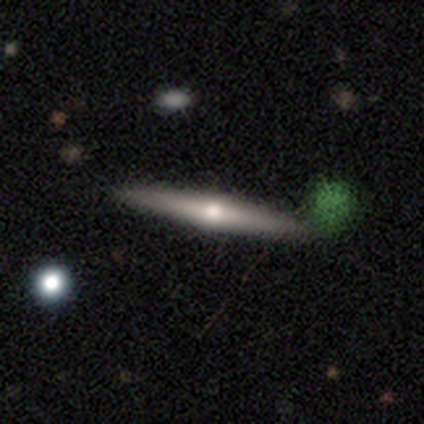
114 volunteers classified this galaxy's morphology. Smooth or featured?
  - featured or disk: 76% *
  - smooth: 18%
  - star or artifact: 5%
Edge-on disk?
  - yes: 93% *
  - no: 7%
Edge-on bulge?
  - rounded: 90% *
  - none: 7%
  - boxy: 2%
Merging?
  - none: 88% *
  - minor disturbance: 9%
  - major disturbance: 2%
  - merger: 1%